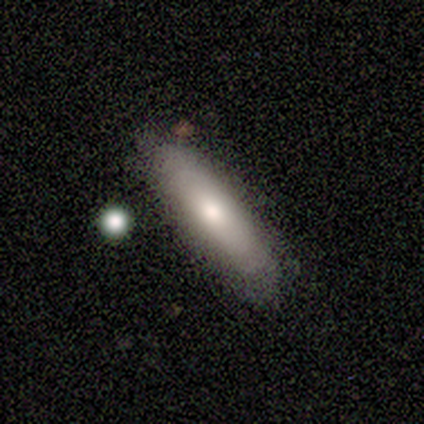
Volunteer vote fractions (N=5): Morphology: type=smooth (80%); roundness=cigar-shaped (100%); merging=none (100%).